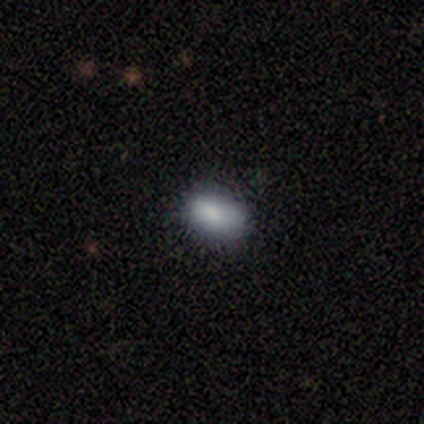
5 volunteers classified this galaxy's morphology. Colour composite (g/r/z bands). It shows a smooth galaxy with no disk features (100%) that is in between round and cigar-shaped (80%). Merging: none (80%).